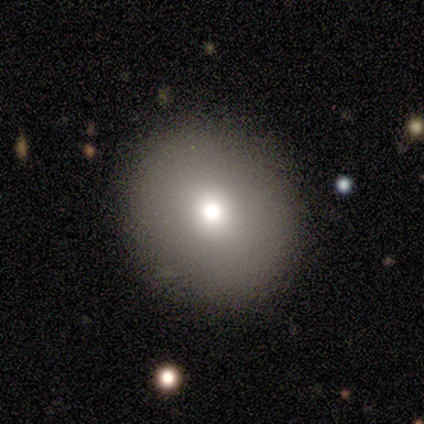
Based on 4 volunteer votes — A smooth galaxy with no disk features (75%) that is round (67%).

Vote fractions:
- Smooth or featured? smooth: 75% / featured or disk: 25% / star or artifact: 0%
- How rounded? round: 67% / in between: 33% / cigar-shaped: 0%
- Merging? none: 75% / minor disturbance: 25% / major disturbance: 0% / merger: 0%